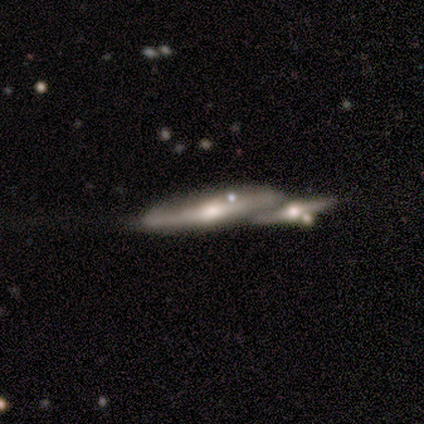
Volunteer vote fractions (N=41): A featured or disk galaxy (78%) viewed edge-on (84%) with a rounded central bulge (89%).

Vote fractions:
- Smooth or featured? featured or disk: 78% / smooth: 22% / star or artifact: 0%
- Edge-on disk? yes: 84% / no: 16%
- Edge-on bulge? rounded: 89% / boxy: 7% / none: 4%
- Merging? merger: 59% / none: 27% / minor disturbance: 12% / major disturbance: 2%